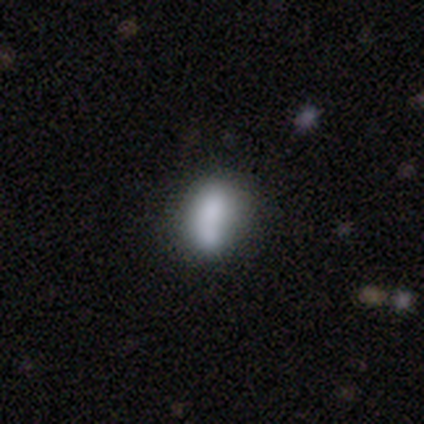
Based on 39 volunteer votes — A smooth galaxy with no disk features (82%) that is in between round and cigar-shaped (75%). Merging: none (44%).